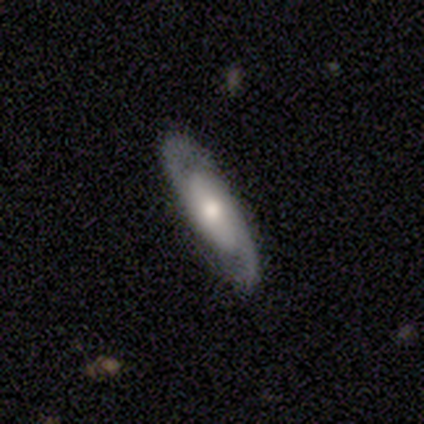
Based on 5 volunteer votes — Overall: featured or disk (100%). Edge-on disk: no (80%). Bar: weak (50%, tied with no). Spiral arms: yes (100%). Spiral arm count: 2 (100%). Spiral winding: loose (50%; tight 25%). Bulge size: moderate (75%). Merging: none (80%).